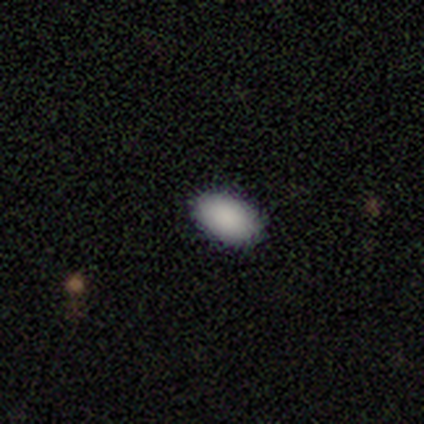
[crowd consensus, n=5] A smooth galaxy with no disk features (100%) that is in between round and cigar-shaped (100%).

Vote fractions:
- Smooth or featured? smooth: 100% / featured or disk: 0% / star or artifact: 0%
- How rounded? in between: 100% / round: 0% / cigar-shaped: 0%
- Merging? none: 100% / minor disturbance: 0% / major disturbance: 0% / merger: 0%